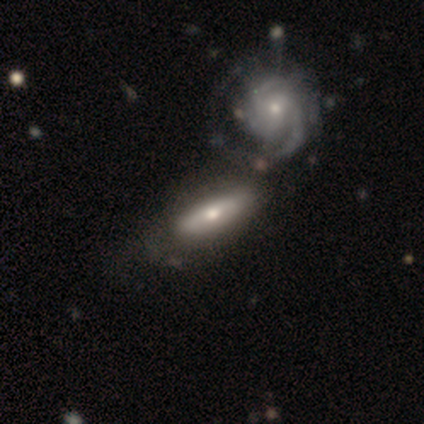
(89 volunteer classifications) A featured or disk galaxy (56%) with no bar (56%), tight (70%) spiral arms (74%) and a small central bulge (52%).

Vote fractions:
- Smooth or featured? featured or disk: 56% / smooth: 42% / star or artifact: 2%
- Edge-on disk? no: 54% / yes: 46%
- Bar? no: 56% / weak: 37% / strong: 7%
- Spiral arms? yes: 74% / no: 26%
- Spiral winding? tight: 70% / medium: 25% / loose: 5%
- Spiral arm count? can't tell: 40% / 2: 25% / 3: 15% / 1: 10% / 4: 5% / more than 4: 5%
- Bulge size? small: 52% / moderate: 44% / large: 4% / dominant: 0% / none: 0%
- Merging? none: 43% / merger: 37% / minor disturbance: 10% / major disturbance: 10%